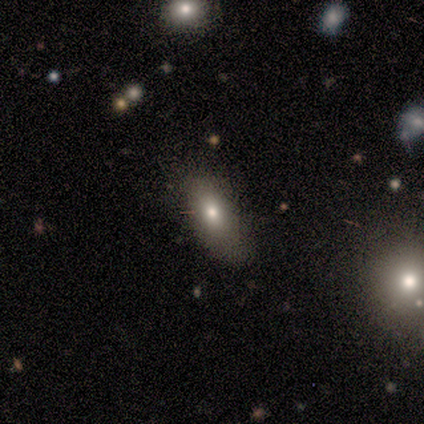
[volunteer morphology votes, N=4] type=smooth (50%); roundness=in between (100%); merging=none (67%).